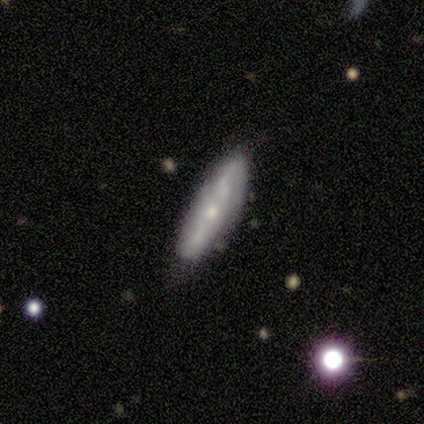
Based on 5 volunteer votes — This is likely a smooth galaxy (60%). How rounded: likely cigar-shaped (67%). Merging: clearly none (80%).